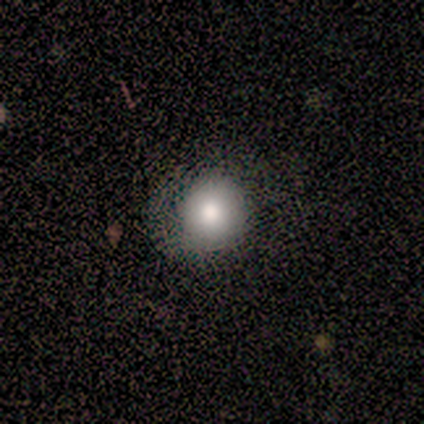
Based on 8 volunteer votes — Smooth or featured? 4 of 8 (50%) said smooth. How rounded? 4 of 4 (100%) said round. Merging? 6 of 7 (86%) said none.